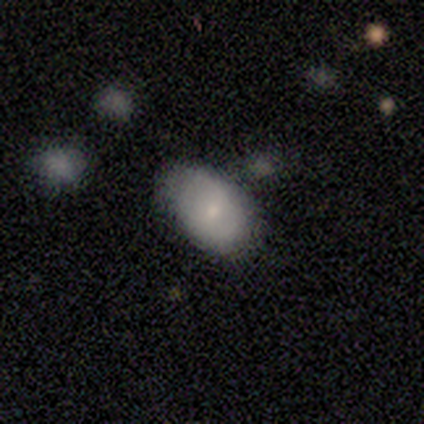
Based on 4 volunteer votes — This appears to be a smooth galaxy with no disk features (75%) that is in between round and cigar-shaped (100%). Merging: minor disturbance (75%).